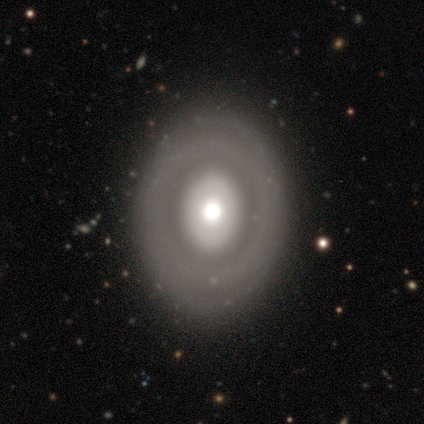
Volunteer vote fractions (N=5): Volunteers were most divided on "how rounded": round: 75%, in between: 25%, cigar-shaped: 0%. More confident: merging — none (100%); smooth or featured — smooth (80%).